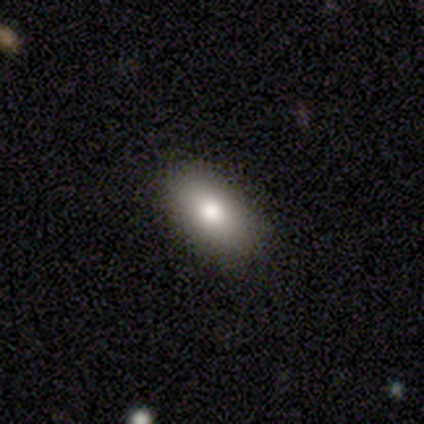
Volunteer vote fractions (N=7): Smooth or featured: smooth — 86% (star or artifact — 14%)
How rounded: in between — 83% (round — 17%)
Merging: none — 67% (minor disturbance — 33%)